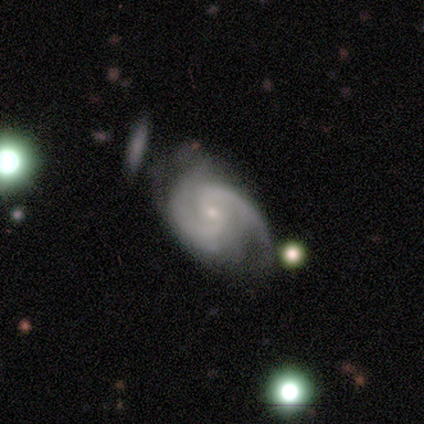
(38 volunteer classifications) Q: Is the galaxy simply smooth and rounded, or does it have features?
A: featured or disk — 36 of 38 (95%).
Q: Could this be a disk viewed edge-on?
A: no — 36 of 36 (100%).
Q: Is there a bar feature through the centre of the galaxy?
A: weak — 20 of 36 (56%).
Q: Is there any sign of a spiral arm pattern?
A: yes — 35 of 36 (97%).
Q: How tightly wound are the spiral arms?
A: medium — 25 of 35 (71%).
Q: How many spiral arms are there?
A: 2 — 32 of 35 (91%).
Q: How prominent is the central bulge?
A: small — 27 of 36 (75%).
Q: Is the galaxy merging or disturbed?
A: none — 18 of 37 (49%).